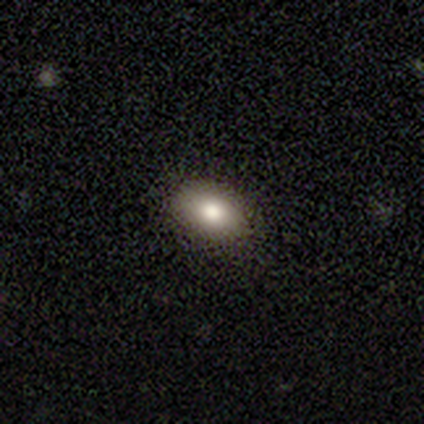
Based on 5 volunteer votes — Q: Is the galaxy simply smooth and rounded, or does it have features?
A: smooth — 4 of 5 (80%).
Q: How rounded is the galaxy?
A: in between — 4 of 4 (100%).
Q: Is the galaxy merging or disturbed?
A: none — 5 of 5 (100%).